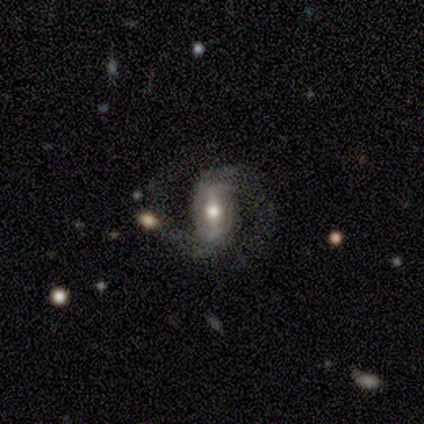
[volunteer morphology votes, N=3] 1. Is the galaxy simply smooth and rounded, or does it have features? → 100% featured or disk, 0% smooth, 0% star or artifact.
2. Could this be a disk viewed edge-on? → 100% no, 0% yes.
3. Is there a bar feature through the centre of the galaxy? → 67% strong, 33% weak, 0% no.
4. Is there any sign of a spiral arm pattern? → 100% yes, 0% no.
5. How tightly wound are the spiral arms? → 67% tight, 33% medium, 0% loose.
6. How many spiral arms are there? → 100% 2, 0% 1, 0% 3, 0% 4, 0% more than 4, 0% can't tell.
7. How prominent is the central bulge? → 100% moderate, 0% dominant, 0% large, 0% small, 0% none.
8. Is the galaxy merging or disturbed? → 100% none, 0% minor disturbance, 0% major disturbance, 0% merger.